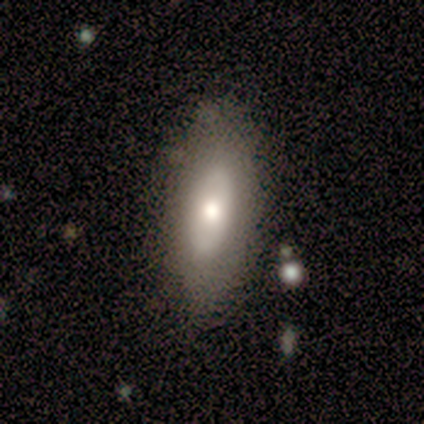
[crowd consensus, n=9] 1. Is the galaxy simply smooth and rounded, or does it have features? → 67% smooth, 33% featured or disk, 0% star or artifact.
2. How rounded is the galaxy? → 83% in between, 17% cigar-shaped, 0% round.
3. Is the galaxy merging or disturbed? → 67% none, 22% major disturbance, 11% minor disturbance, 0% merger.